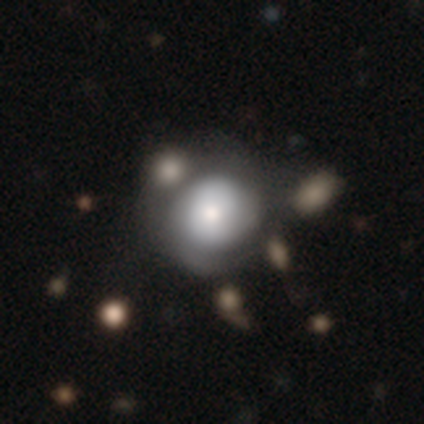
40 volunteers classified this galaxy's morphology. A featured or disk galaxy (50%) with no bar (90%), 2 (42%) tight (58%) spiral arms (60%) and a moderate central bulge (55%). Merging: none (42%).